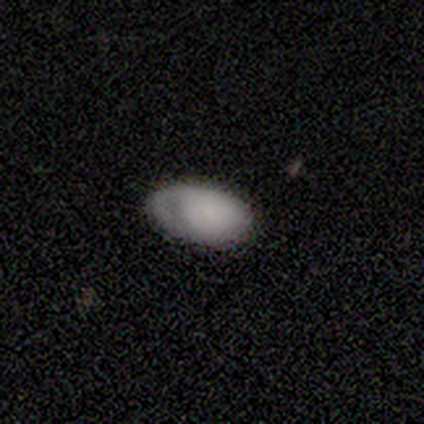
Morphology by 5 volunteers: Overall: smooth (80%). How rounded: in between (100%). Merging: none (60%; minor disturbance 20%).